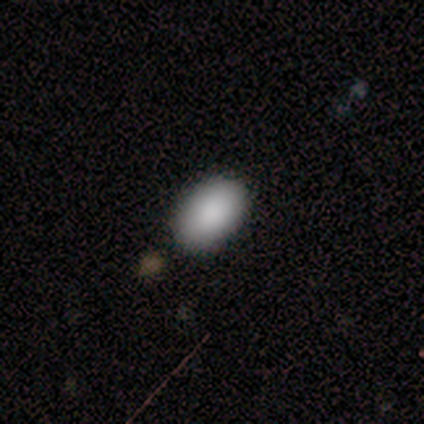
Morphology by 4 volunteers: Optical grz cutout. It shows a smooth galaxy with no disk features (75%) that is in between round and cigar-shaped (100%). Merging: none (100%).